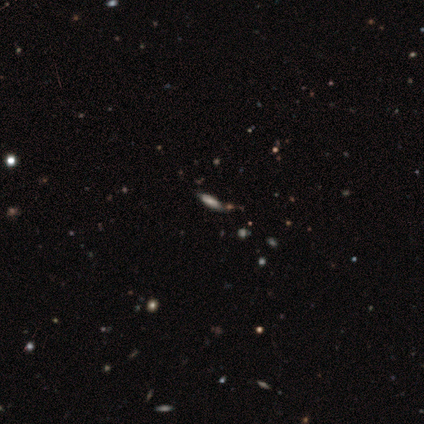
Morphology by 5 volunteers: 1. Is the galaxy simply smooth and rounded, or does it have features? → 60% smooth, 20% featured or disk, 20% star or artifact.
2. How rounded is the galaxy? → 100% cigar-shaped, 0% round, 0% in between.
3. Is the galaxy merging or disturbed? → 100% none, 0% minor disturbance, 0% major disturbance, 0% merger.